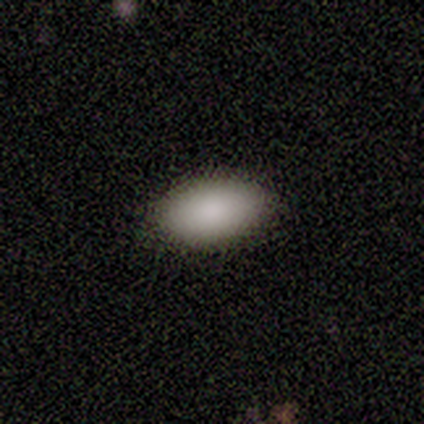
smooth 100%, featured or disk 0%, star or artifact 0%. Down the decision tree: how rounded — in between (100%); merging — none (100%).